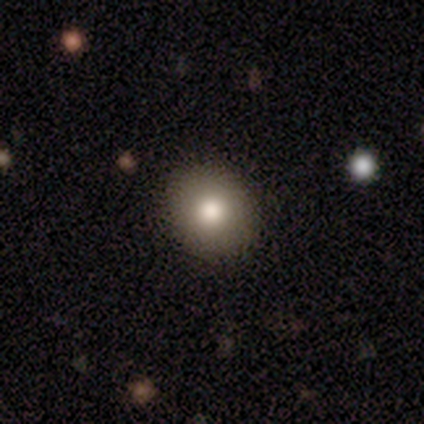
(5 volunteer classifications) Volunteers were most divided on "smooth or featured" (2-way tie): smooth: 40%, star or artifact: 40%, featured or disk: 20%. More confident: how rounded — round (100%); merging — none (100%).